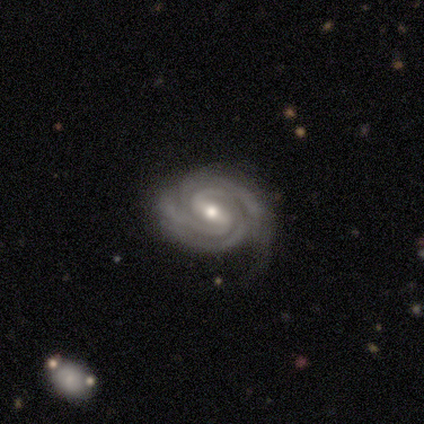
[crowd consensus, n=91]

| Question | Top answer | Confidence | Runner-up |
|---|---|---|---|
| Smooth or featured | featured or disk | 90% | star or artifact (5%) |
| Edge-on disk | no | 98% | yes (2%) |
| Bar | weak | 48% | strong (45%) |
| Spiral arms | yes | 100% | — |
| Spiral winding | tight | 75% | medium (21%) |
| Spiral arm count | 2 | 35% | 3 (32%) |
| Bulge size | moderate | 60% | small (35%) |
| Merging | none | 70% | minor disturbance (19%) |